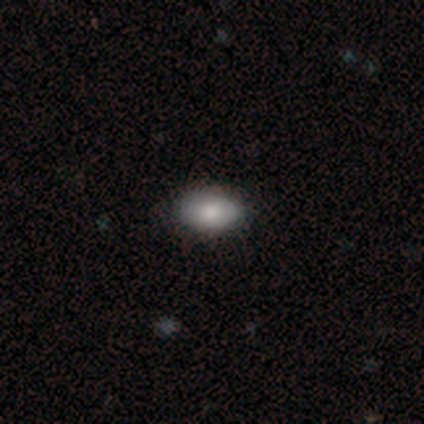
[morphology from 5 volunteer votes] Volunteers were most divided on "merging": none: 60%, minor disturbance: 40%, major disturbance: 0%, merger: 0%. More confident: how rounded — in between (100%); smooth or featured — smooth (80%).